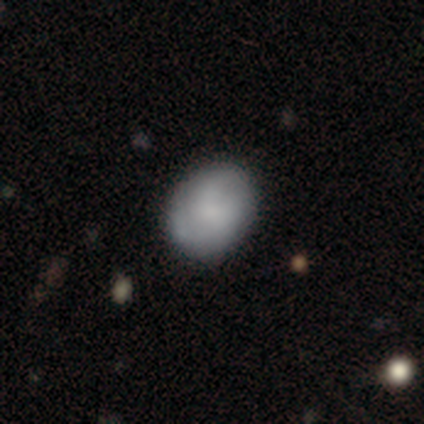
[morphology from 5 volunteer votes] smooth_or_featured: smooth (p=1.00)
how_rounded: in between (p=0.60) [alt: round p=0.40]
merging: none (p=0.60) [alt: minor disturbance p=0.40]